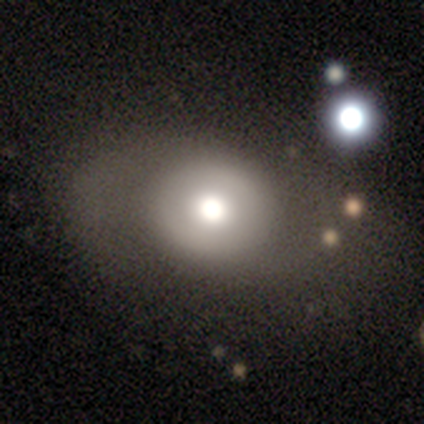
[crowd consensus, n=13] smooth_or_featured: smooth (p=0.85) [alt: featured or disk p=0.15]
how_rounded: round (p=0.64) [alt: in between p=0.36]
merging: none (p=0.62) [alt: minor disturbance p=0.23]